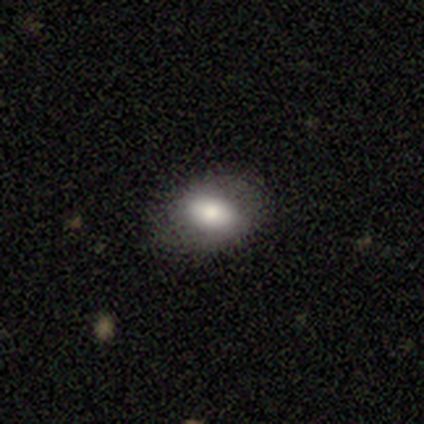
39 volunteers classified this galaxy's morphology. type=smooth (79%); roundness=in between (94%); merging=none (81%).